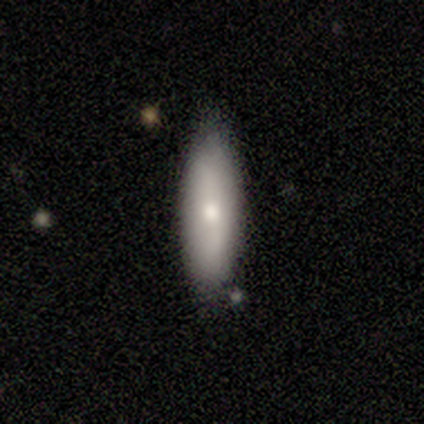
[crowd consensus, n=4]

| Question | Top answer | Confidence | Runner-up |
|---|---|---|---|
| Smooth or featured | smooth | 75% | featured or disk (25%) |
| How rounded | in between | 67% | cigar-shaped (33%) |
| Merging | none | 75% | minor disturbance (25%) |